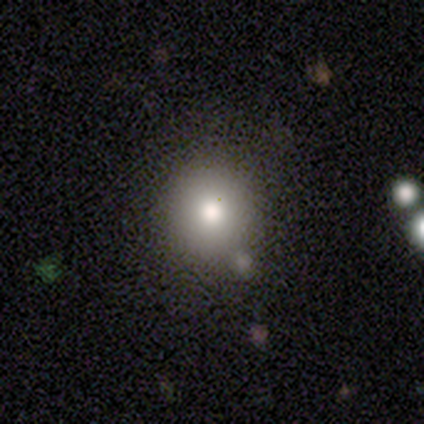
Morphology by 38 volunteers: Smooth or featured: smooth — 71% (featured or disk — 16%)
How rounded: round — 85% (in between — 15%)
Merging: none — 79% (minor disturbance — 9%)